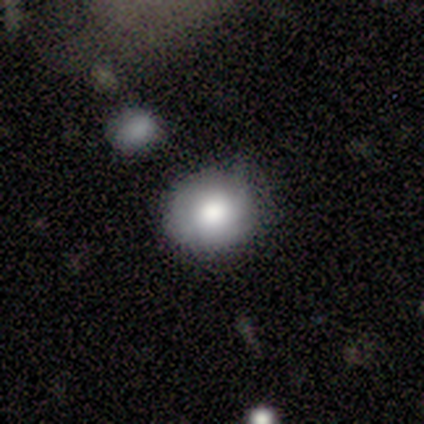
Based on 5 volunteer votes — A featured or disk galaxy (60%) with no bar (67%), no spiral arms (67%) and a large central bulge (67%). Merging: minor disturbance (100%).